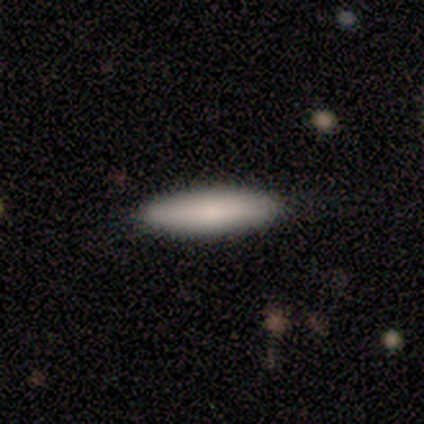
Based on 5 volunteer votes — smooth 60%, featured or disk 40%, star or artifact 0%. Down the decision tree: how rounded — in between (67%); merging — none (100%).